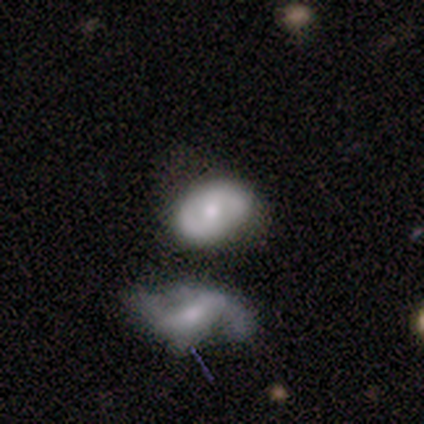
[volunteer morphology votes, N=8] type=featured or disk (100%); edge-on=no (88%); bar=no (71%); spiral arms=yes (86%); winding=medium (83%); arm count=2 (100%); bulge=moderate (71%); merging=none (50%).